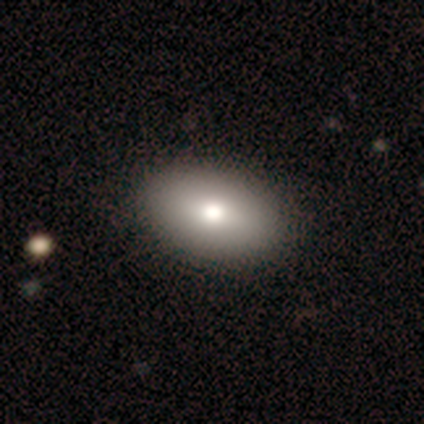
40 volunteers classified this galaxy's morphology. Smooth or featured?
  - smooth: 88% *
  - star or artifact: 10%
  - featured or disk: 2%
How rounded?
  - in between: 89% *
  - round: 6%
  - cigar-shaped: 6%
Merging?
  - none: 64% *
  - minor disturbance: 3%
  - merger: 3%
  - major disturbance: 0%